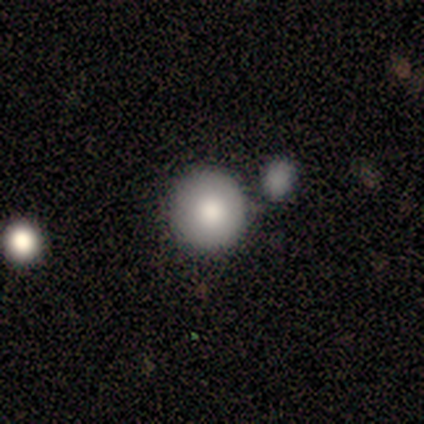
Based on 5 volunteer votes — This appears to be a smooth galaxy with no disk features (80%) that is round (100%). Merging: none (60%).